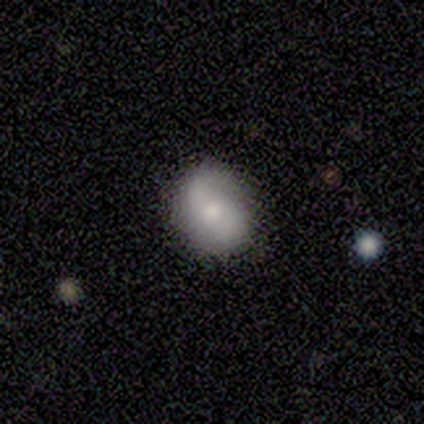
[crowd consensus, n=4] A smooth galaxy with no disk features (75%) that is in between round and cigar-shaped (67%).

Vote fractions:
- Smooth or featured? smooth: 75% / featured or disk: 25% / star or artifact: 0%
- How rounded? in between: 67% / round: 33% / cigar-shaped: 0%
- Merging? none: 50% (tied) / minor disturbance: 50% (tied) / major disturbance: 0% / merger: 0%